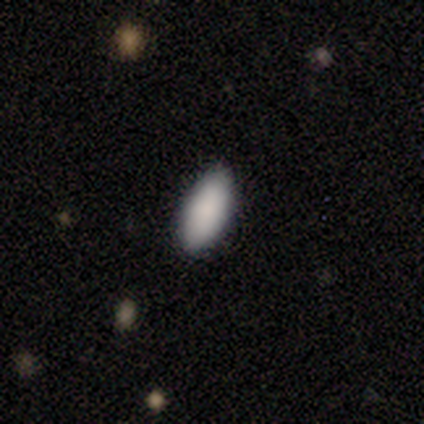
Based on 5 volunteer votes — smooth_or_featured: smooth (p=1.00)
how_rounded: in between (p=0.80) [alt: cigar-shaped p=0.20]
merging: none (p=0.80) [alt: minor disturbance p=0.20]